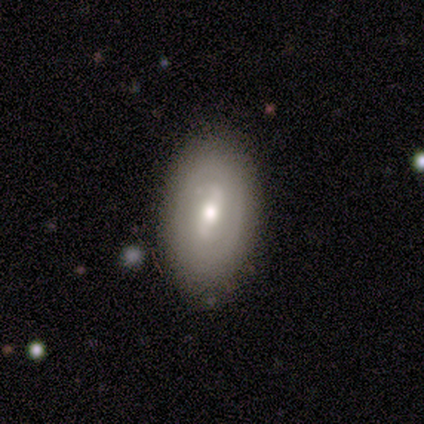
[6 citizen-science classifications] Q: Smooth or featured?
A: smooth (50%); tied with: featured or disk (50%)
Q: How rounded?
A: in between (100%)
Q: Merging?
A: none (100%)